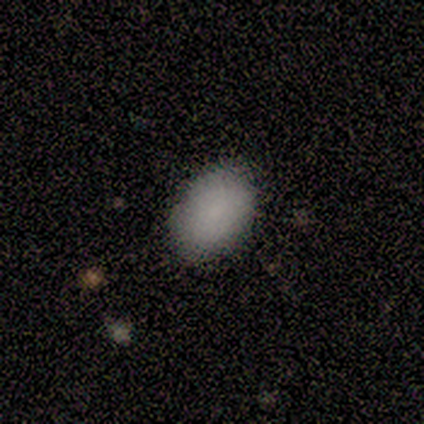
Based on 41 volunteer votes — smooth-or-featured: smooth: 90% | featured or disk: 5% | star or artifact: 5%
  how-rounded: in between: 86% | round: 14% | cigar-shaped: 0%
  merging: none: 85% | minor disturbance: 15% | major disturbance: 0% | merger: 0%